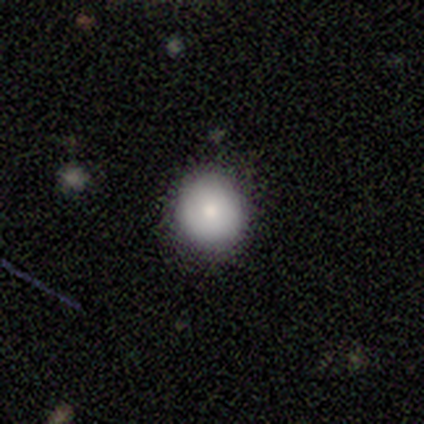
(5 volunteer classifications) This appears to be a smooth galaxy with no disk features (100%) that is round (80%). Merging: none (100%).